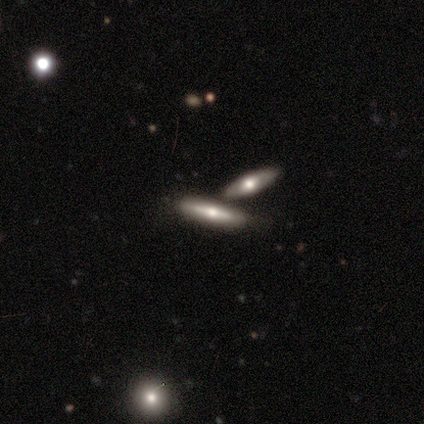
Smooth or featured: featured or disk — 65% (smooth — 32%)
Edge-on disk: yes — 85% (no — 15%)
Edge-on bulge: rounded — 95% (boxy — 5%)
Merging: none — 67% (merger — 26%)